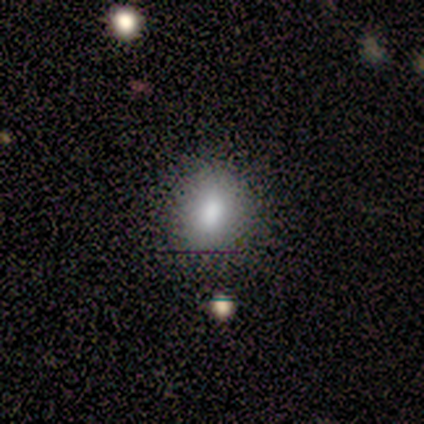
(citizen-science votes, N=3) Smooth or featured: smooth — 100%
How rounded: in between — 67% (round — 33%)
Merging: none — 100%